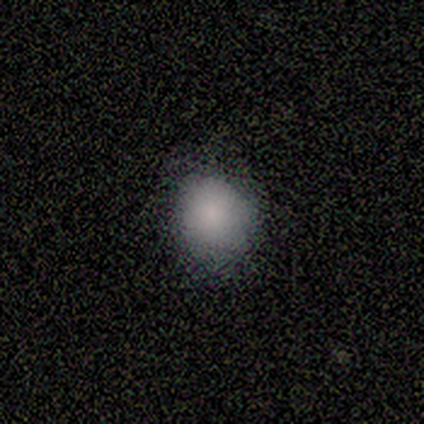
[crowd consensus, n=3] This is clearly a smooth galaxy (100%). How rounded: likely round (67%). Merging: clearly none (100%).